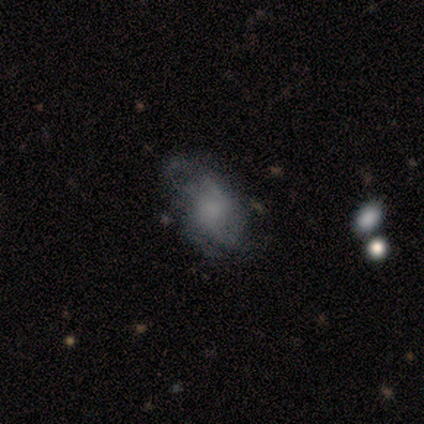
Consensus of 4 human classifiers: featured or disk 75%, smooth 25%, star or artifact 0%. Down the decision tree: edge-on disk — no (100%); bar — no (67%); spiral arms — yes (67%); spiral arm count — can't tell (100%); spiral winding — medium (50%, tied with loose); bulge size — large (33%, tied with moderate and none); merging — minor disturbance (50%).